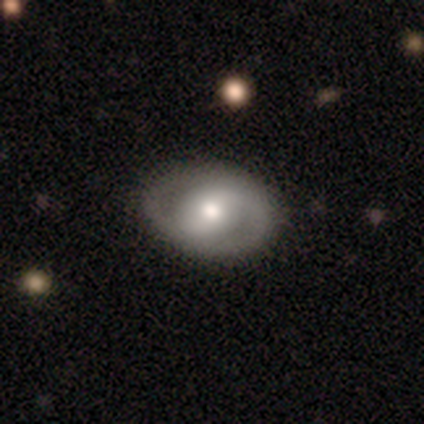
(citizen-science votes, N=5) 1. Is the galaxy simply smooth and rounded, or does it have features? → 60% featured or disk, 40% smooth, 0% star or artifact.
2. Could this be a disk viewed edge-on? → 100% no, 0% yes.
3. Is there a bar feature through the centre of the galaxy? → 33% strong (tied), 33% weak (tied), 33% no (tied).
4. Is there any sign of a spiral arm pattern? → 67% no, 33% yes.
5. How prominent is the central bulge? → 67% moderate, 33% large, 0% dominant, 0% small, 0% none.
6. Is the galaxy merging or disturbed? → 100% none, 0% minor disturbance, 0% major disturbance, 0% merger.